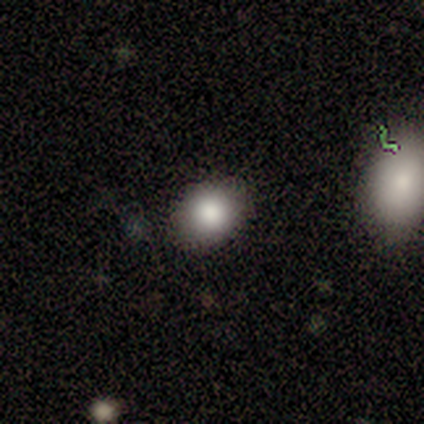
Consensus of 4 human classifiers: Overall: smooth (100%). How rounded: round (75%). Merging: none (100%).